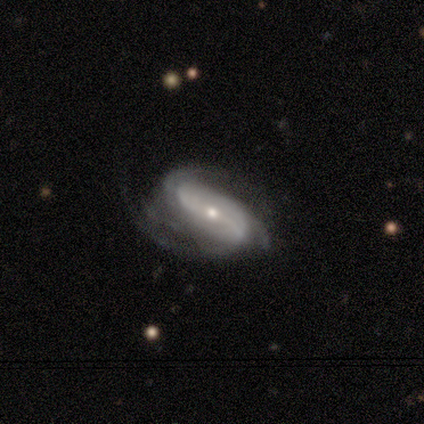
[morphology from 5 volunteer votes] featured or disk 100%, smooth 0%, star or artifact 0%. Down the decision tree: edge-on disk — no (80%); bar — no (75%); spiral arms — yes (100%); spiral arm count — 2 (25%, tied with 3, 4 and can't tell); spiral winding — medium (50%, tied with loose); bulge size — small (75%); merging — none (40%, tied with major disturbance).